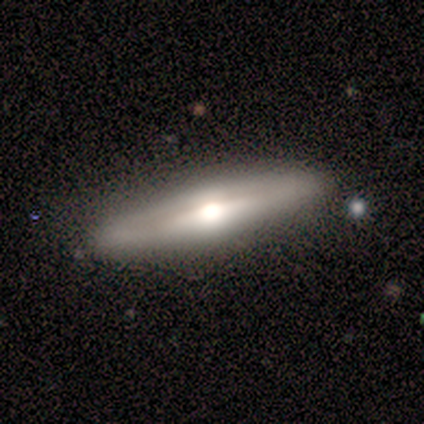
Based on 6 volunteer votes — smooth_or_featured: featured or disk (p=0.67) [alt: smooth p=0.33]
disk_edge_on: yes (p=0.75) [alt: no p=0.25]
edge_on_bulge: rounded (p=1.00)
merging: none (p=0.83) [alt: major disturbance p=0.17]